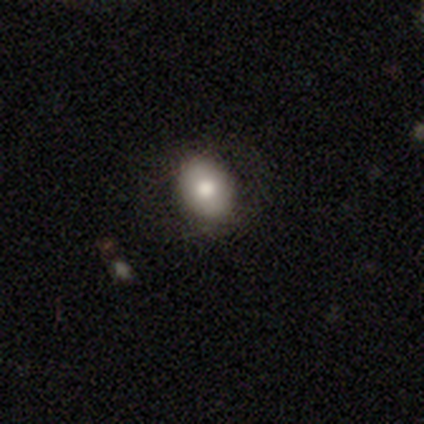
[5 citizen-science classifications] This is likely a smooth galaxy (60%). How rounded: clearly in between (100%). Merging: likely none (75%).